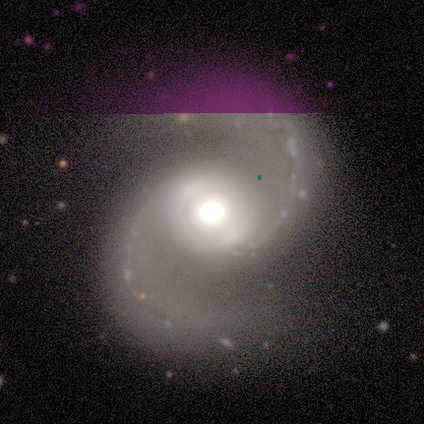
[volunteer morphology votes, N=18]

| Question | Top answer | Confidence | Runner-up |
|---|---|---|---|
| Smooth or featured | featured or disk | 94% | star or artifact (6%) |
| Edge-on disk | no | 100% | — |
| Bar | no | 53% | weak (41%) |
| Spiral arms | yes | 100% | — |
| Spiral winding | medium | 71% | loose (29%) |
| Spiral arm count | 2 | 94% | 1 (6%) |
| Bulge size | large | 53% | moderate (47%) |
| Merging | none | 82% | minor disturbance (12%) |